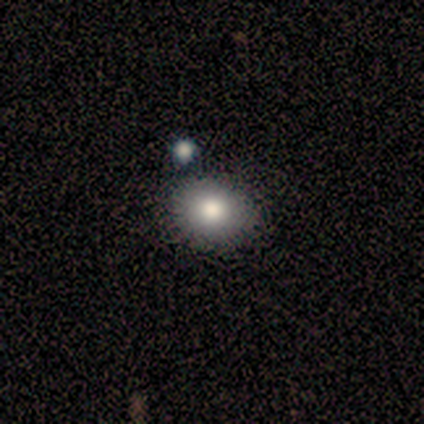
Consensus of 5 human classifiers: Morphology: type=smooth (100%); roundness=in between (60%); merging=none (80%).